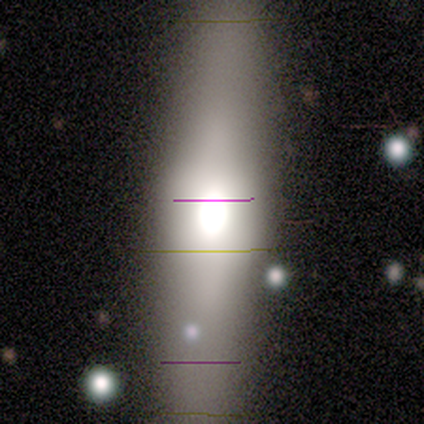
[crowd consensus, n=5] Overall: smooth (40%, tied with star or artifact). How rounded: in between (50%, tied with cigar-shaped). Merging: none (67%; merger 33%).